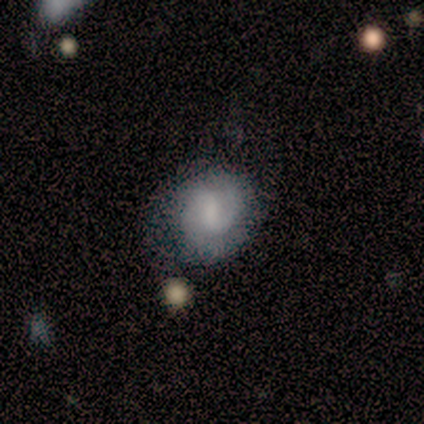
smooth-or-featured: featured or disk: 50% | star or artifact: 33% | smooth: 17%
  disk-edge-on: no: 100% | yes: 0%
    bar: no: 100% | strong: 0% | weak: 0%
    has-spiral-arms: yes: 67% | no: 33%
      spiral-winding: tight: 50% (tied) | medium: 50% (tied) | loose: 0%
      spiral-arm-count: 1: 50% (tied) | 2: 50% (tied) | 3: 0% | 4: 0% | more than 4: 0% | can't tell: 0%
    bulge-size: small: 67% | none: 33% | dominant: 0% | large: 0% | moderate: 0%
  merging: none: 50% | minor disturbance: 25% | merger: 25% | major disturbance: 0%